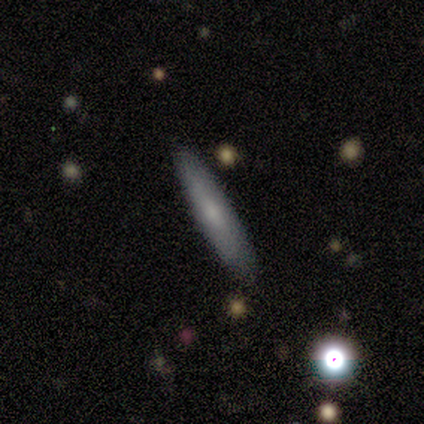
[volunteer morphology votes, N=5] smooth 60%, featured or disk 40%, star or artifact 0%. Down the decision tree: how rounded — cigar-shaped (100%); merging — none (100%).